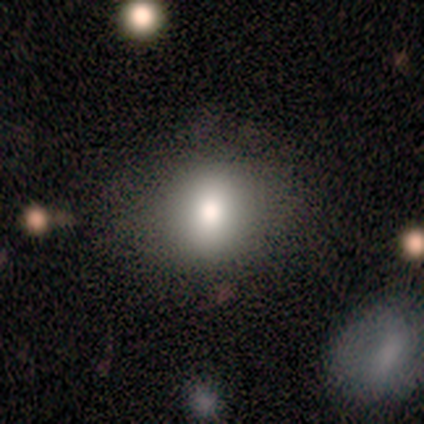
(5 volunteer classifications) Smooth or featured? 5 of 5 (100%) said smooth. How rounded? 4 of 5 (80%) said in between. Merging? 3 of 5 (60%) said none.